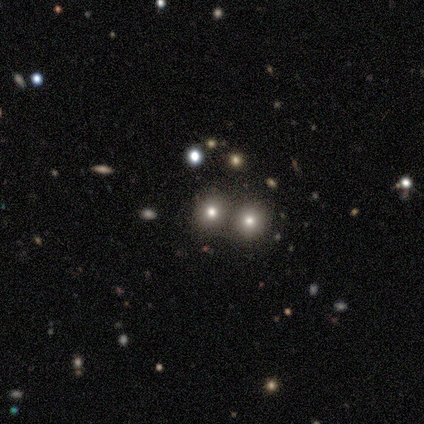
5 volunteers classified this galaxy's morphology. Smooth or featured? smooth (80%)
How rounded? round (75%)
Merging? merger (75%)